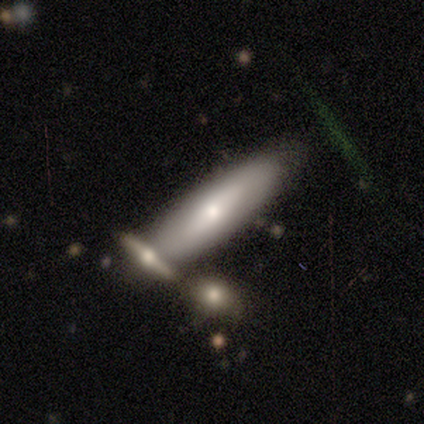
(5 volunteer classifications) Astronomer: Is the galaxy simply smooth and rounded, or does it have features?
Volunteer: smooth — 60% (runner-up: featured or disk, 40%).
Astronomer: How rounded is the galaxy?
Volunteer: in between — 67%.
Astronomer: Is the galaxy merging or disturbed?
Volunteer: none — 100%.